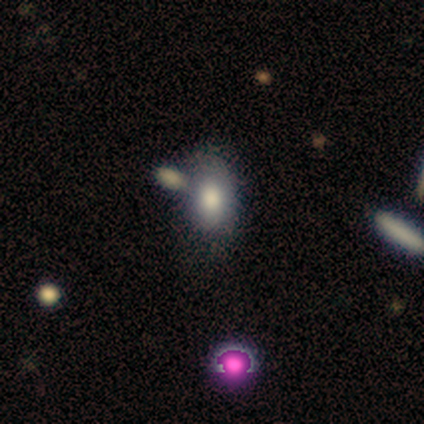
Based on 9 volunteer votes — Smooth or featured? smooth (100%)
How rounded? in between (89%)
Merging? none (56%)